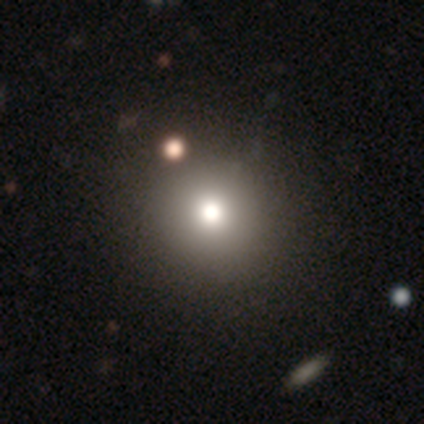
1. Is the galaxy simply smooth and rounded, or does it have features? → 74% smooth, 13% featured or disk, 13% star or artifact.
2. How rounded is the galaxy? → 82% round, 18% in between, 0% cigar-shaped.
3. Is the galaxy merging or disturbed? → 52% none, 9% minor disturbance, 6% major disturbance, 3% merger.